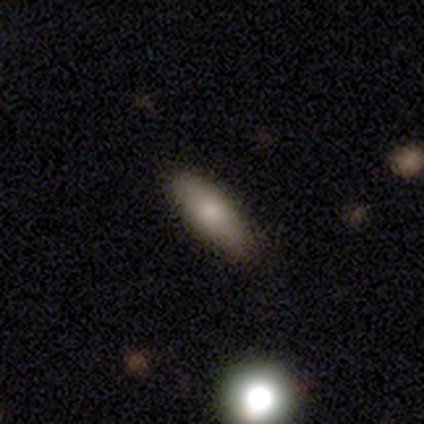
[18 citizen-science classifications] This is likely a smooth galaxy (67%). How rounded: clearly in between (92%). Merging: clearly none (82%).